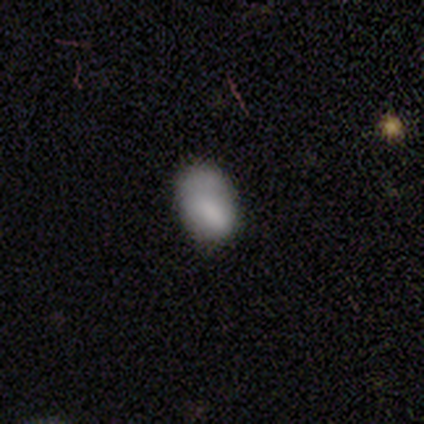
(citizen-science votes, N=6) A smooth galaxy with no disk features (100%) that is in between round and cigar-shaped (83%). Merging: minor disturbance (67%).